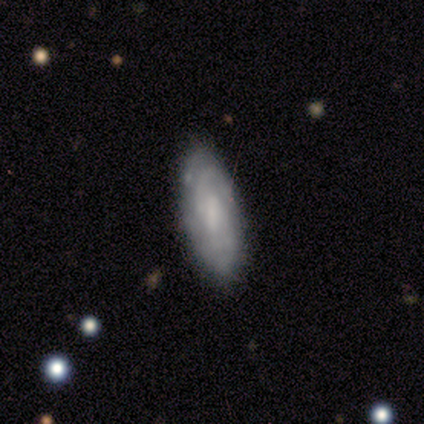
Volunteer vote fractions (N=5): Smooth or featured: featured or disk — 80% (star or artifact — 20%)
Edge-on disk: no — 100%
Bar: no — 50% (strong — 25%)
Spiral arms: yes — 50% (tied with no — 50%)
Spiral winding: tight — 50% (tied with loose — 50%)
Spiral arm count: 2 — 50% (tied with can't tell — 50%)
Bulge size: none — 50% (moderate — 25%)
Merging: none — 50% (minor disturbance — 25%)